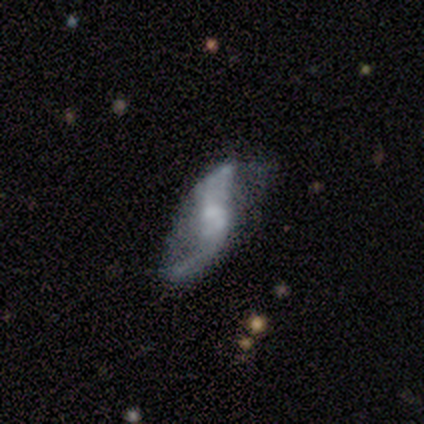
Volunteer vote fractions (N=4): smooth-or-featured: featured or disk: 100% | smooth: 0% | star or artifact: 0%
  disk-edge-on: no: 100% | yes: 0%
    bar: weak: 50% (tied) | no: 50% (tied) | strong: 0%
    has-spiral-arms: yes: 75% | no: 25%
      spiral-winding: loose: 100% | tight: 0% | medium: 0%
      spiral-arm-count: 2: 100% | 1: 0% | 3: 0% | 4: 0% | more than 4: 0% | can't tell: 0%
    bulge-size: none: 50% | moderate: 25% | small: 25% | dominant: 0% | large: 0%
  merging: none: 25% (tied) | minor disturbance: 25% (tied) | major disturbance: 25% (tied) | merger: 25% (tied)